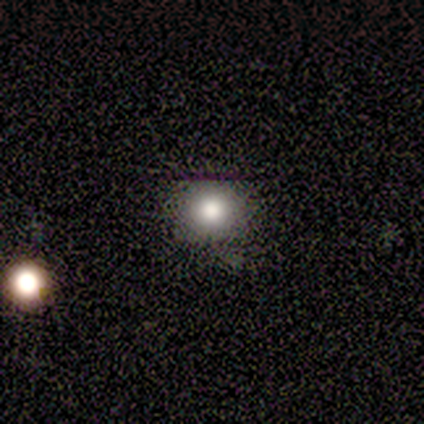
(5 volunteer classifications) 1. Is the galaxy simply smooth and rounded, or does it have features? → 80% smooth, 20% featured or disk, 0% star or artifact.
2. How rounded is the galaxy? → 100% round, 0% in between, 0% cigar-shaped.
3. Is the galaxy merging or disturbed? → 100% none, 0% minor disturbance, 0% major disturbance, 0% merger.